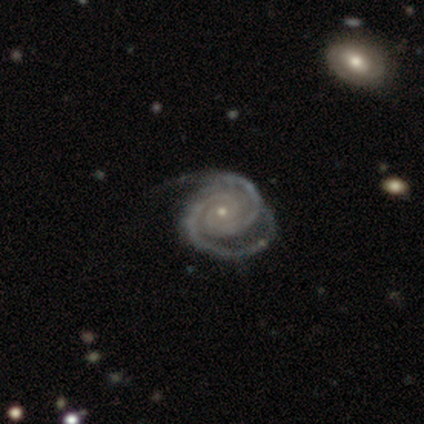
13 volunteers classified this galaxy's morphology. A featured or disk galaxy (92%) with no bar (83%), 2 (75%) tight (58%) spiral arms (100%) and a small central bulge (83%).

Vote fractions:
- Smooth or featured? featured or disk: 92% / smooth: 8% / star or artifact: 0%
- Edge-on disk? no: 100% / yes: 0%
- Bar? no: 83% / weak: 17% / strong: 0%
- Spiral arms? yes: 100% / no: 0%
- Spiral winding? tight: 58% / medium: 33% / loose: 8%
- Spiral arm count? 2: 75% / 3: 8% / 4: 8% / can't tell: 8% / 1: 0% / more than 4: 0%
- Bulge size? small: 83% / moderate: 17% / dominant: 0% / large: 0% / none: 0%
- Merging? none: 69% / minor disturbance: 15% / major disturbance: 15% / merger: 0%